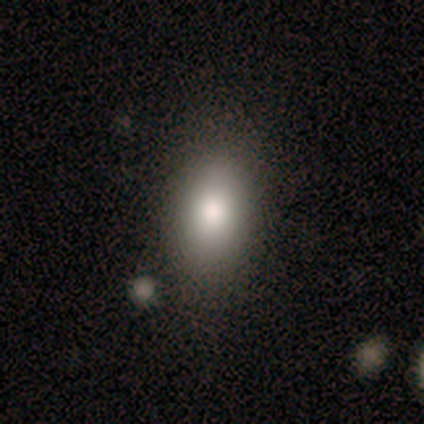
Smooth or featured? smooth (60%)
How rounded? cigar-shaped (67%)
Merging? none (40%, tied with merger)